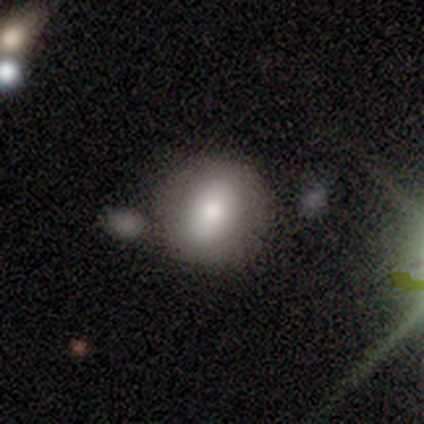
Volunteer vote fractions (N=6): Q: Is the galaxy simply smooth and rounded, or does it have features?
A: smooth — 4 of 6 (67%).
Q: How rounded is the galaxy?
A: in between — 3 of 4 (75%).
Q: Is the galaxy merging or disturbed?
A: none — 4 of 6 (67%).